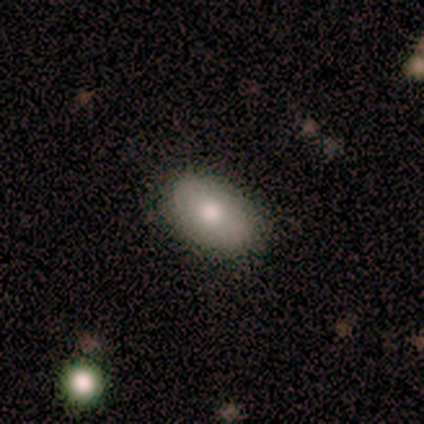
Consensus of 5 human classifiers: A smooth galaxy with no disk features (100%) that is in between round and cigar-shaped (80%). Merging: none (100%).